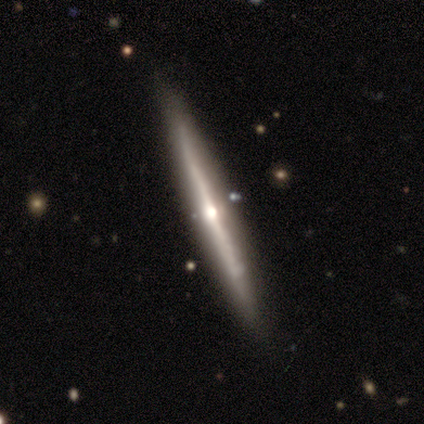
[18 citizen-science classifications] Smooth or featured: featured or disk — 83% (smooth — 11%)
Edge-on disk: yes — 100%
Edge-on bulge: rounded — 80% (none — 20%)
Merging: none — 94% (minor disturbance — 6%)